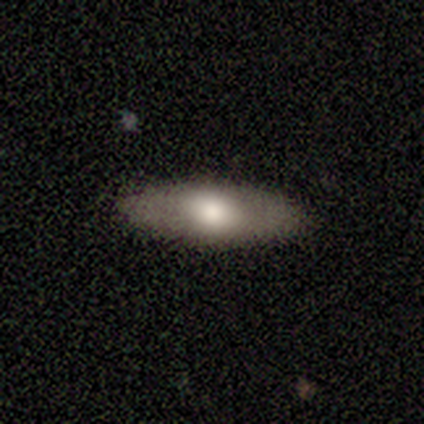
Volunteers were most divided on "how rounded": in between: 75%, cigar-shaped: 25%, round: 0%. More confident: merging — none (100%); smooth or featured — smooth (80%).